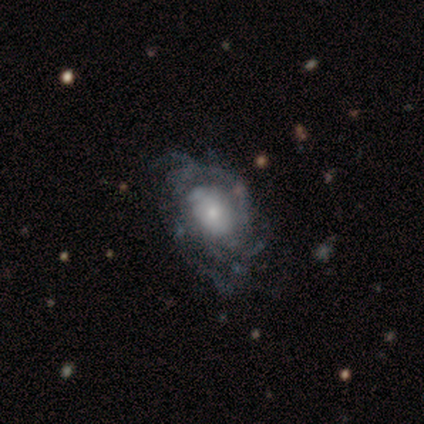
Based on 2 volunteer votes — Smooth or featured: featured or disk — 100%
Edge-on disk: no — 100%
Bar: no — 100%
Spiral arms: yes — 100%
Spiral winding: tight — 50% (tied with medium — 50%)
Spiral arm count: 3 — 100%
Bulge size: moderate — 50% (tied with small — 50%)
Merging: none — 100%